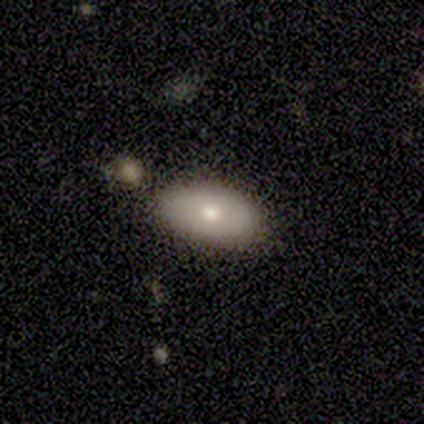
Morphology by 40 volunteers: This appears to be a smooth galaxy with no disk features (75%) that is in between round and cigar-shaped (90%). Merging: none (87%).